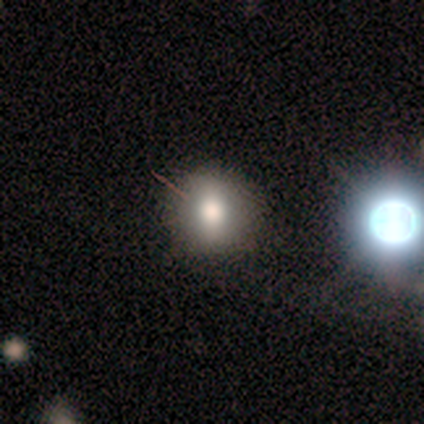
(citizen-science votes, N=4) A smooth galaxy with no disk features (75%) that is round (100%). Merging: none (50%, tied with minor disturbance).